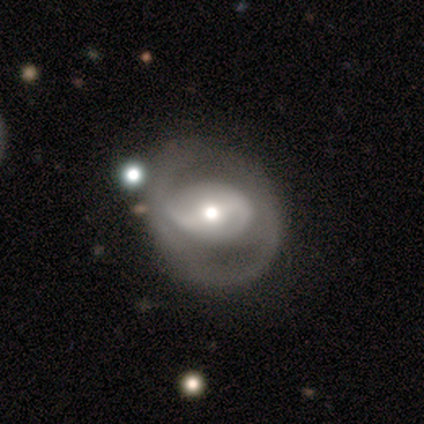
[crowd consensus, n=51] Overall: featured or disk (80%). Edge-on disk: no (93%). Bar: no (37%; strong 32%). Spiral arms: yes (55%; no 45%). Spiral arm count: 2 (57%; can't tell 33%). Spiral winding: medium (52%; loose 33%). Bulge size: moderate (68%). Merging: none (48%; minor disturbance 30%).